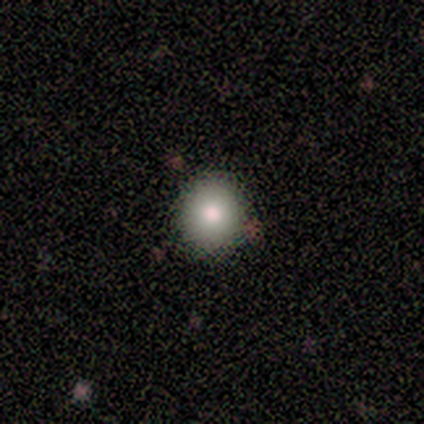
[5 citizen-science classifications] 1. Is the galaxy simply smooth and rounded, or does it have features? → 100% smooth, 0% featured or disk, 0% star or artifact.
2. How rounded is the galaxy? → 100% round, 0% in between, 0% cigar-shaped.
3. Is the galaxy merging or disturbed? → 100% none, 0% minor disturbance, 0% major disturbance, 0% merger.